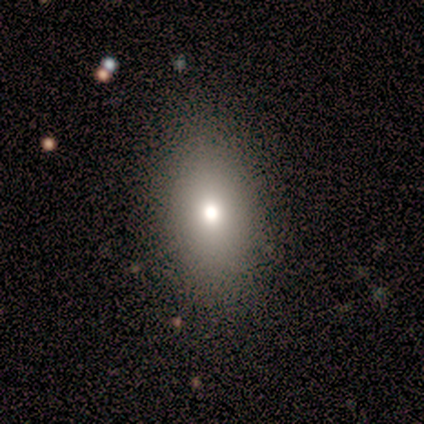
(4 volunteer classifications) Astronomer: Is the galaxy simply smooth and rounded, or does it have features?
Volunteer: smooth — 50%, tied with featured or disk at 50%.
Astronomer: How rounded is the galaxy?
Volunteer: round — 50%, tied with in between at 50%.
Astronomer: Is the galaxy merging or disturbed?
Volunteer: none — 75%.